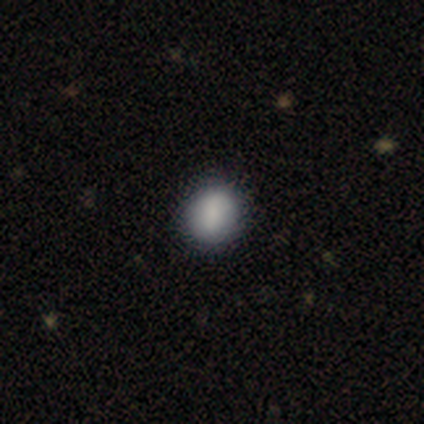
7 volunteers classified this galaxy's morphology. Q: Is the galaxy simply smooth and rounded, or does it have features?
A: smooth — 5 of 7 (71%).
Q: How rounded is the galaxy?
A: round — 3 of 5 (60%).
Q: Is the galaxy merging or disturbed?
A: none — 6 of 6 (100%).